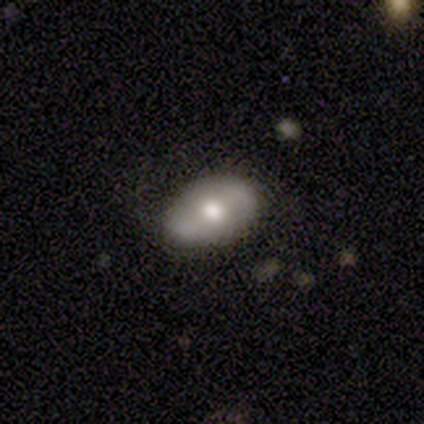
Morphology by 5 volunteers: smooth 60%, featured or disk 40%, star or artifact 0%. Down the decision tree: how rounded — in between (67%); merging — none (80%).